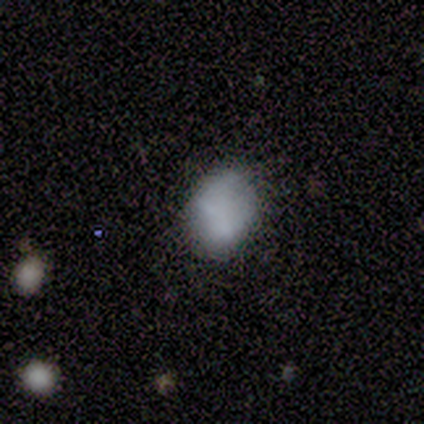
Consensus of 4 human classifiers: Volunteers were most divided on "how rounded": round: 67%, in between: 33%, cigar-shaped: 0%. More confident: smooth or featured — smooth (75%); merging — none (75%).